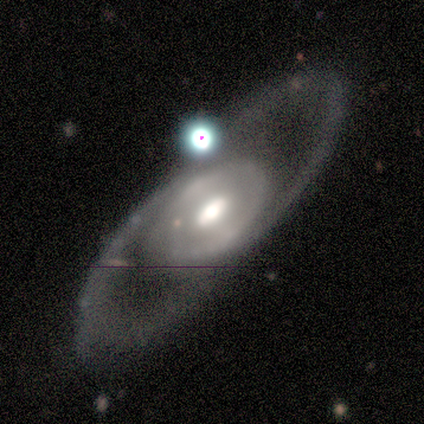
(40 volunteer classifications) smooth_or_featured: featured or disk (p=0.88) [alt: star or artifact p=0.10]
disk_edge_on: no (p=0.94) [alt: yes p=0.06]
bar: no (p=0.61) [alt: weak p=0.30]
has_spiral_arms: no (p=0.58) [alt: yes p=0.42]
bulge_size: moderate (p=0.52) [alt: large p=0.48]
merging: none (p=0.58) [alt: minor disturbance p=0.33]